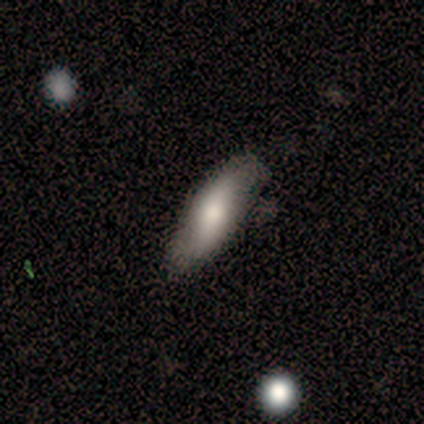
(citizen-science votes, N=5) smooth_or_featured: smooth (p=0.60) [alt: featured or disk p=0.40]
how_rounded: cigar-shaped (p=0.67) [alt: in between p=0.33]
merging: minor disturbance (p=0.60) [alt: none p=0.40]